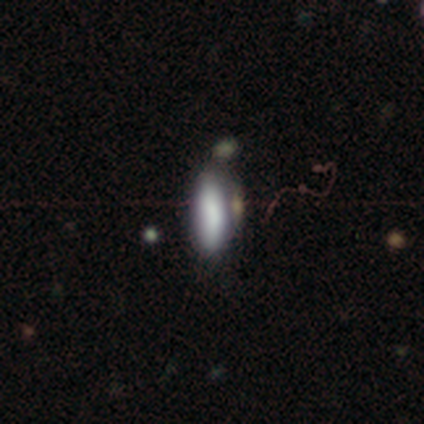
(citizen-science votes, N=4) Volunteers were most divided on "how rounded": in between: 67%, cigar-shaped: 33%, round: 0%. More confident: smooth or featured — smooth (75%); merging — none (75%).